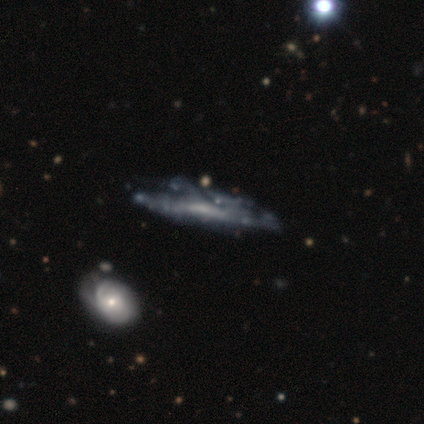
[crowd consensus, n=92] featured or disk 77%, smooth 20%, star or artifact 3%. Down the decision tree: edge-on disk — yes (56%); edge-on bulge — none (55%); merging — minor disturbance (35%).